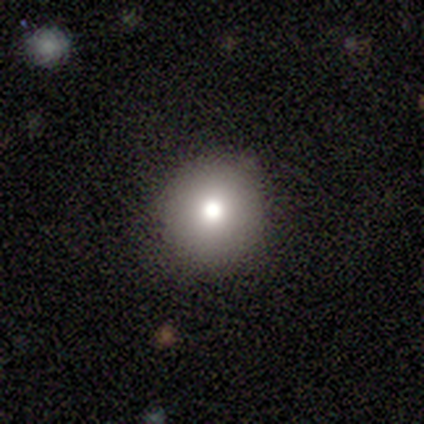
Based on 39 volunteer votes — Smooth or featured? 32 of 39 (82%) said smooth. How rounded? 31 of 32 (97%) said round. Merging? 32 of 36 (89%) said none.